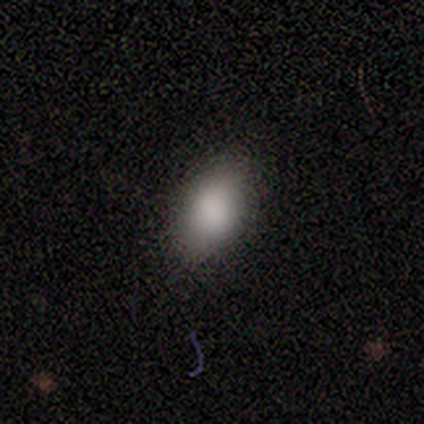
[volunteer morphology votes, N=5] smooth-or-featured: smooth: 80% | featured or disk: 20% | star or artifact: 0%
  how-rounded: in between: 75% | round: 25% | cigar-shaped: 0%
  merging: none: 80% | minor disturbance: 20% | major disturbance: 0% | merger: 0%